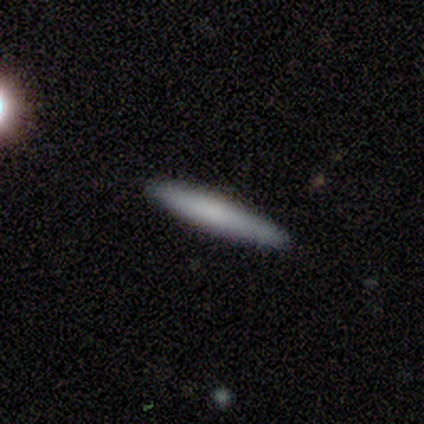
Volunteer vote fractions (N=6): This is clearly a smooth galaxy (83%). How rounded: clearly cigar-shaped (100%). Merging: clearly none (83%).